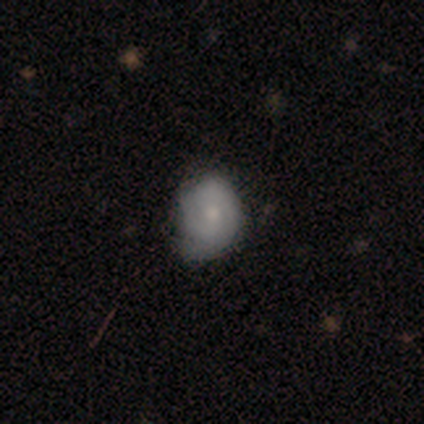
Overall: featured or disk (50%; smooth 37%). Edge-on disk: no (100%). Bar: no (79%). Spiral arms: yes (84%). Spiral arm count: 2 (38%, tied with can't tell). Spiral winding: tight (69%; medium 31%). Bulge size: small (53%; moderate 37%). Merging: minor disturbance (48%; none 45%).